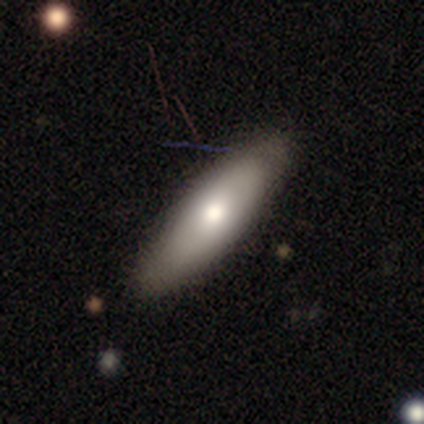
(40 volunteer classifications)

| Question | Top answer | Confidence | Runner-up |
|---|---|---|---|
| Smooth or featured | smooth | 57% | featured or disk (40%) |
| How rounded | cigar-shaped | 52% | in between (39%) |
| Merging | none | 77% | minor disturbance (15%) |